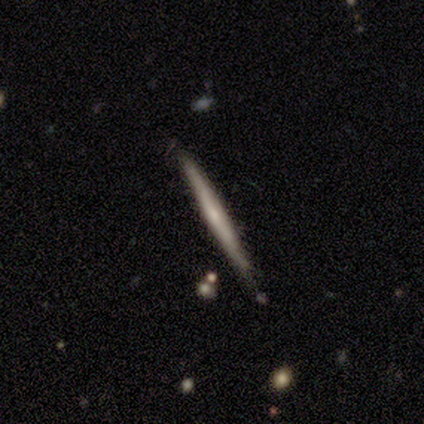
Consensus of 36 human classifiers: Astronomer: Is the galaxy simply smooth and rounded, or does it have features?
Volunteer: featured or disk — 61% (runner-up: smooth, 39%).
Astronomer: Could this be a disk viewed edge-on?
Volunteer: yes — 95%.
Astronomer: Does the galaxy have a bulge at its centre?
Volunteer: none — 71%.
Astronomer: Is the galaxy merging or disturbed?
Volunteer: none — 78%.